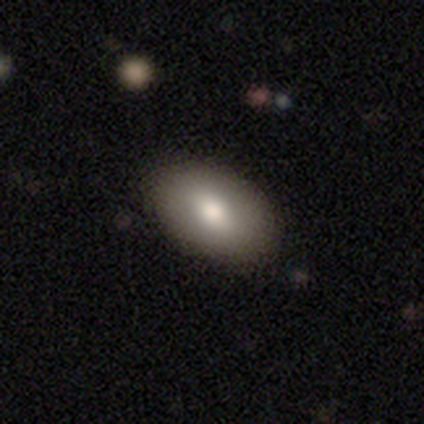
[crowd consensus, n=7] A smooth galaxy with no disk features (86%) that is in between round and cigar-shaped (100%). Merging: none (100%).